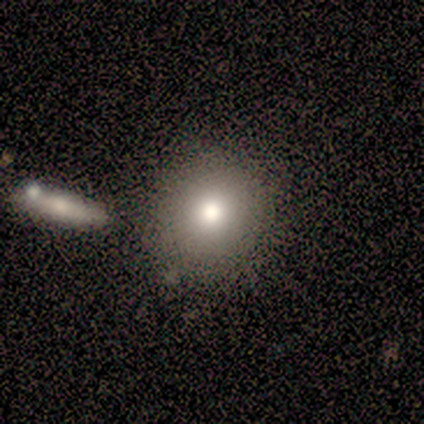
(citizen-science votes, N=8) Morphology: type=smooth (75%); roundness=round (83%); merging=none (83%).